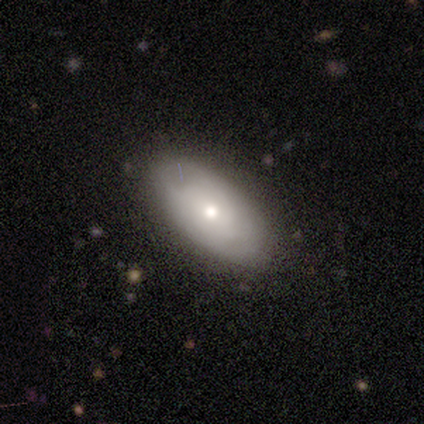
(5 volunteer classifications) Morphology: type=smooth (80%); roundness=in between (100%); merging=none (75%).